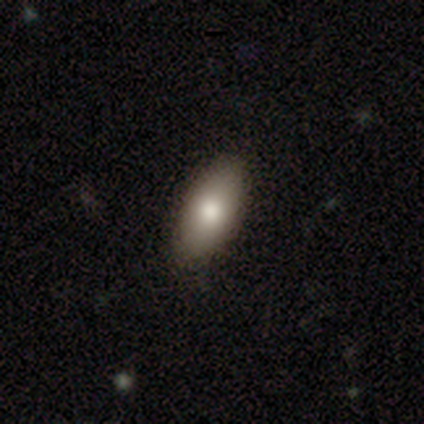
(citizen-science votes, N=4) smooth_or_featured: smooth (p=1.00)
how_rounded: in between (p=1.00)
merging: none (p=1.00)